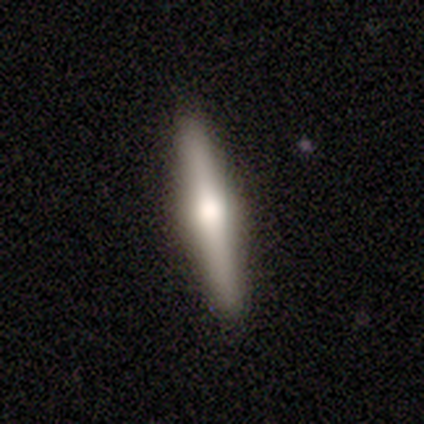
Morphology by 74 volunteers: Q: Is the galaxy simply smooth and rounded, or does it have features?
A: featured or disk — 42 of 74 (57%).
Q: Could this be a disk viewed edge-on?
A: yes — 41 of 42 (98%).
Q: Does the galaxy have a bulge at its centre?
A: rounded — 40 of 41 (98%).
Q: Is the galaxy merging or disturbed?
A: none — 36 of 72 (50%).